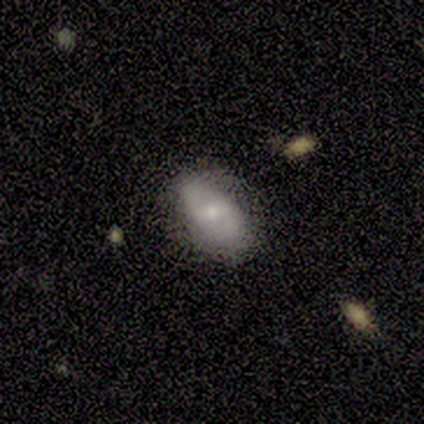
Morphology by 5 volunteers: A smooth galaxy with no disk features (60%) that is in between round and cigar-shaped (67%). Merging: none (60%).